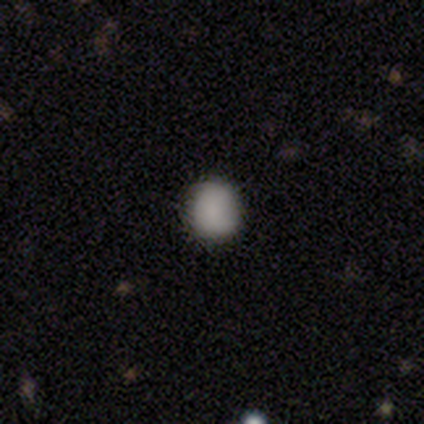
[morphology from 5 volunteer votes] This is clearly a smooth galaxy (80%). How rounded: clearly round (100%). Merging: clearly none (100%).